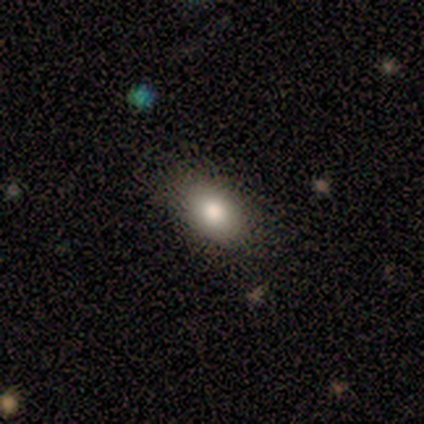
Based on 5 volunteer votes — smooth-or-featured: smooth: 100% | featured or disk: 0% | star or artifact: 0%
  how-rounded: in between: 100% | round: 0% | cigar-shaped: 0%
  merging: none: 80% | minor disturbance: 20% | major disturbance: 0% | merger: 0%